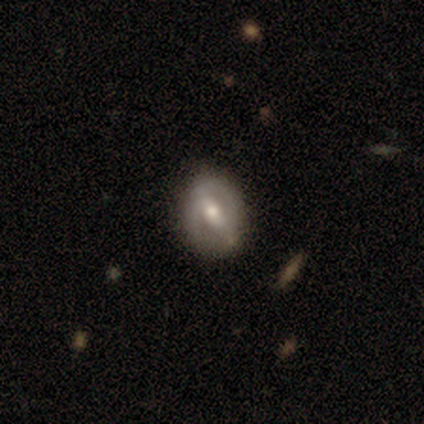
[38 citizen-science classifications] Smooth or featured? featured or disk (68%)
Edge-on disk? no (96%)
Bar? strong (52%)
Spiral arms? yes (72%)
Spiral winding? medium (50%)
Spiral arm count? 2 (89%)
Bulge size? moderate (48%)
Merging? none (86%)